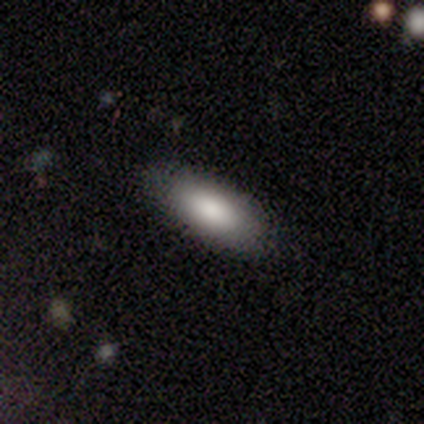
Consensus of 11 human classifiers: Smooth or featured? smooth (91%)
How rounded? in between (100%)
Merging? none (82%)